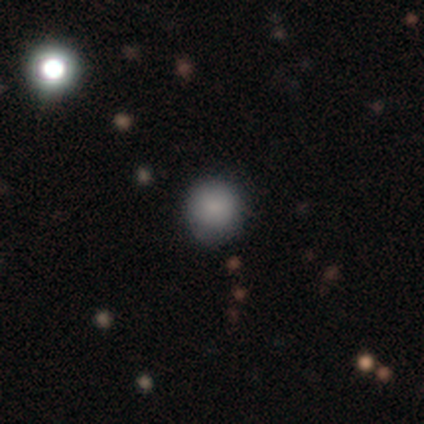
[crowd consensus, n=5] Smooth or featured: smooth — 100%
How rounded: round — 80% (in between — 20%)
Merging: none — 80% (minor disturbance — 20%)